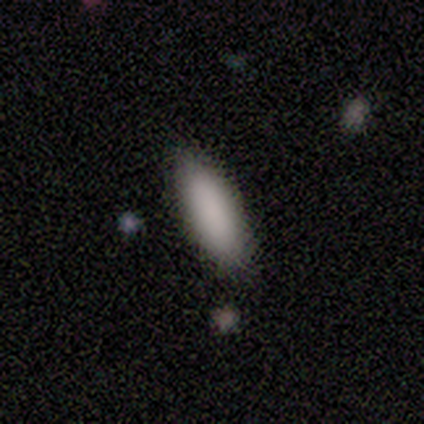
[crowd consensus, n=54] Smooth or featured?
  - smooth: 91% *
  - featured or disk: 9%
  - star or artifact: 0%
How rounded?
  - in between: 69% *
  - cigar-shaped: 31%
  - round: 0%
Merging?
  - none: 94% *
  - minor disturbance: 6%
  - major disturbance: 0%
  - merger: 0%